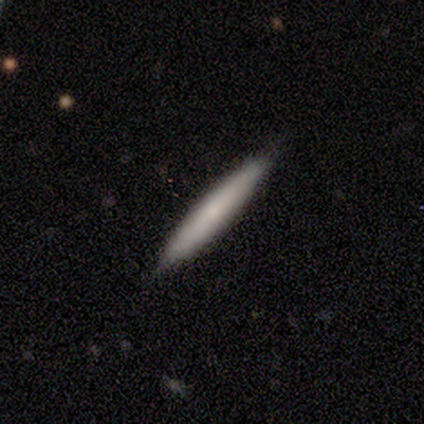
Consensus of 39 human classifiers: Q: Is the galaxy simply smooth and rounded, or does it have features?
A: smooth — 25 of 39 (64%).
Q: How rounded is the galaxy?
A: cigar-shaped — 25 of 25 (100%).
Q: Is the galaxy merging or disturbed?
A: none — 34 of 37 (92%).